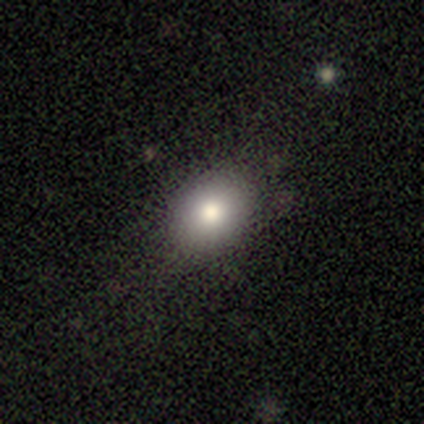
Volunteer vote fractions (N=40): smooth_or_featured: smooth (p=0.85) [alt: featured or disk p=0.12]
how_rounded: in between (p=0.68) [alt: round p=0.32]
merging: none (p=0.82) [alt: minor disturbance p=0.10]